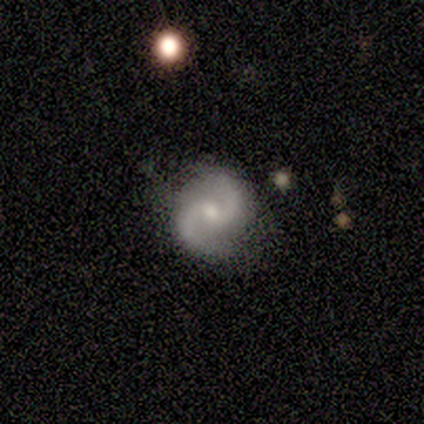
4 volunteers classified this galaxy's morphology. type=featured or disk (75%); edge-on=no (100%); bar=no (67%); spiral arms=yes (100%); winding=medium (67%); arm count=2 (100%); bulge=small (67%); merging=none (100%).